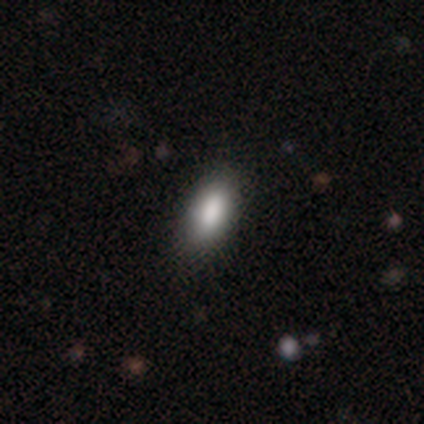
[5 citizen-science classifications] Smooth or featured? smooth (100%)
How rounded? in between (100%)
Merging? none (80%)